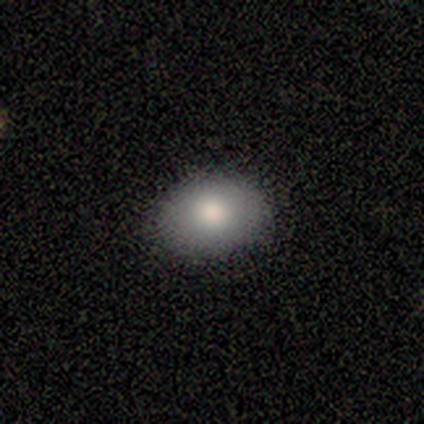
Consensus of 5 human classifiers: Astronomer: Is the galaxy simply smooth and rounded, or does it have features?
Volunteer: smooth — 80%.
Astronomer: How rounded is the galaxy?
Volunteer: round — 50%, tied with in between at 50%.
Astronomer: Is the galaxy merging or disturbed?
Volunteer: none — 100%.